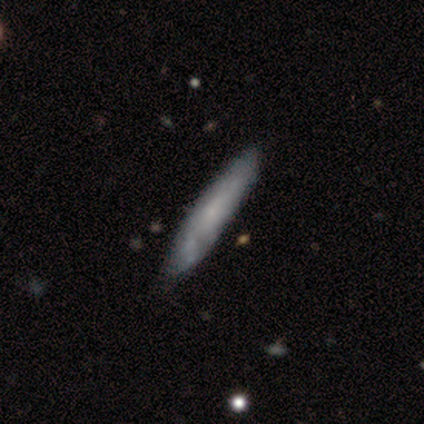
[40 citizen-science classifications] smooth 57%, featured or disk 42%, star or artifact 0%. Down the decision tree: how rounded — cigar-shaped (78%); merging — none (57%).